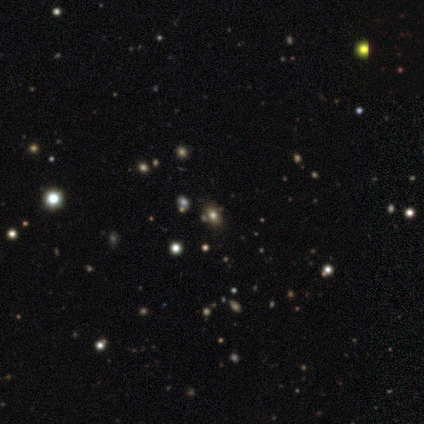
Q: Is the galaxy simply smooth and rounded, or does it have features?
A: smooth — 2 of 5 (40%, tied with featured or disk).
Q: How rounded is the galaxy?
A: in between — 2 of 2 (100%).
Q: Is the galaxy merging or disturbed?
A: none — 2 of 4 (50%, tied with minor disturbance).